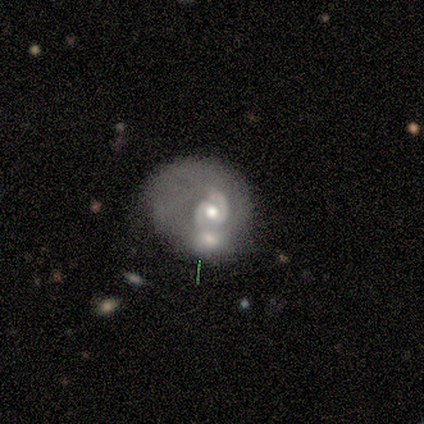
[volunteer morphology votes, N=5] This is clearly a featured or disk galaxy (100%). It is clearly not viewed edge-on (100%). Bar: likely no (60%). Spiral arm pattern: clearly yes (100%). Spiral arm count: clearly 2 (80%). Spiral winding: likely tight (60%). Central bulge: marginally large (40%). Merging: marginally minor disturbance (40%, tied with merger).